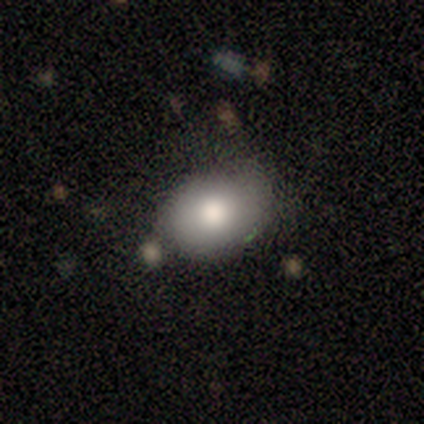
Smooth or featured: smooth — 100%
How rounded: in between — 60% (round — 40%)
Merging: minor disturbance — 60% (none — 40%)